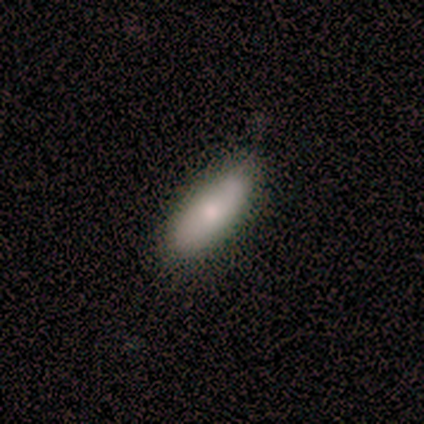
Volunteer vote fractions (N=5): Morphology: type=smooth (80%); roundness=in between (75%); merging=none (60%).